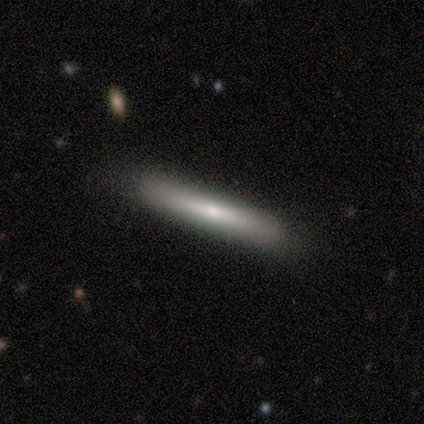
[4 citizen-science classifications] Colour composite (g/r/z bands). It shows a smooth galaxy with no disk features (75%) that is cigar-shaped (100%). Merging: none (100%).